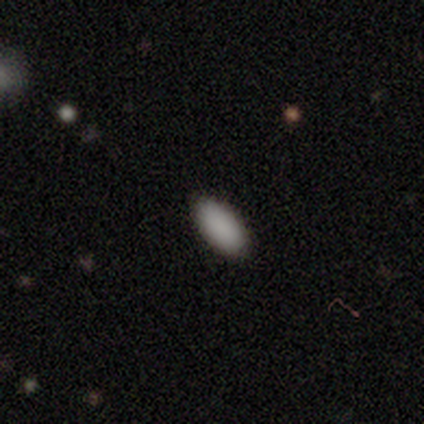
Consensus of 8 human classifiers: Smooth or featured?
  - smooth: 100% *
  - featured or disk: 0%
  - star or artifact: 0%
How rounded?
  - in between: 88% *
  - cigar-shaped: 12%
  - round: 0%
Merging?
  - none: 100% *
  - minor disturbance: 0%
  - major disturbance: 0%
  - merger: 0%